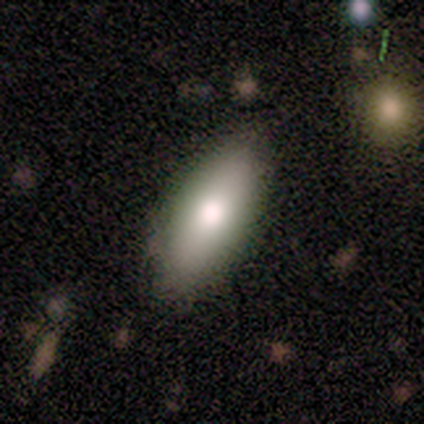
Morphology: type=smooth (64%); roundness=in between (86%); merging=none (64%).